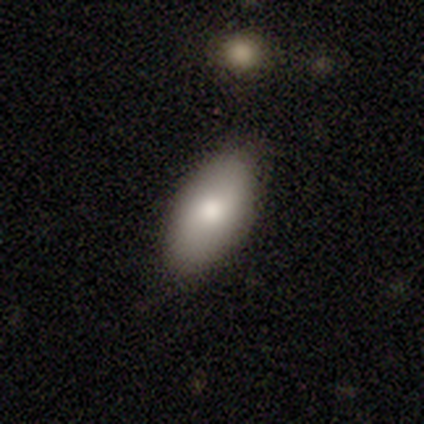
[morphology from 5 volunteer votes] This is clearly a smooth galaxy (80%). How rounded: clearly in between (100%). Merging: likely none (60%).